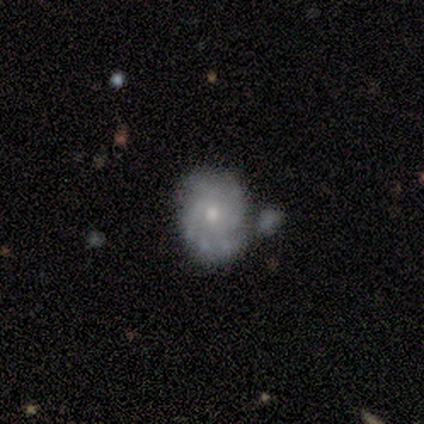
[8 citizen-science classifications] This is likely a featured or disk galaxy (75%). It is clearly not viewed edge-on (100%). Bar: clearly no (100%). Spiral arm pattern: clearly yes (100%). Spiral arm count: marginally 2 (33%, tied with more than 4). Spiral winding: possibly tight (50%). Central bulge: possibly moderate (50%, tied with small). Merging: marginally none (43%).